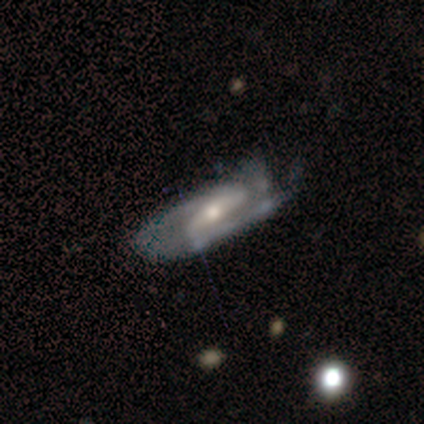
featured or disk 100%, smooth 0%, star or artifact 0%. Down the decision tree: edge-on disk — no (75%); bar — strong (67%); spiral arms — yes (67%); spiral arm count — 2 (50%, tied with can't tell); spiral winding — tight (50%, tied with loose); bulge size — small (67%); merging — minor disturbance (100%).